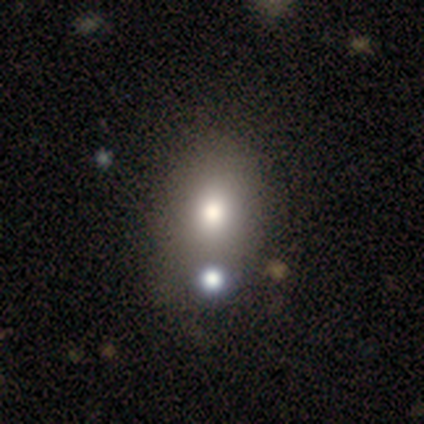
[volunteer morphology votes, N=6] A smooth galaxy with no disk features (83%) that is in between round and cigar-shaped (100%). Merging: none (50%, tied with major disturbance).